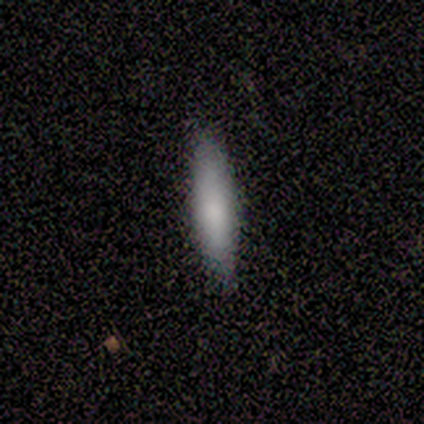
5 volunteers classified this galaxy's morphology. smooth-or-featured: smooth: 80% | featured or disk: 20% | star or artifact: 0%
  how-rounded: cigar-shaped: 100% | round: 0% | in between: 0%
  merging: none: 100% | minor disturbance: 0% | major disturbance: 0% | merger: 0%